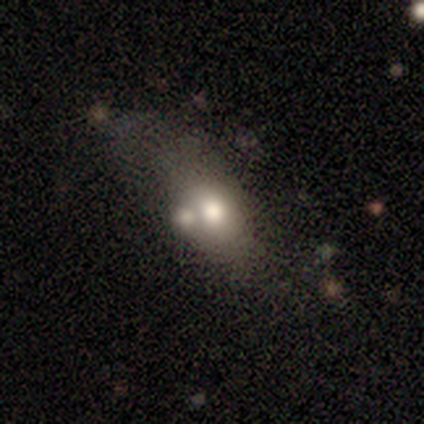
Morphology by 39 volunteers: Q: Smooth or featured?
A: smooth (72%); runner-up: featured or disk (18%)
Q: How rounded?
A: in between (71%); runner-up: round (18%)
Q: Merging?
A: merger (37%); runner-up: major disturbance (26%)